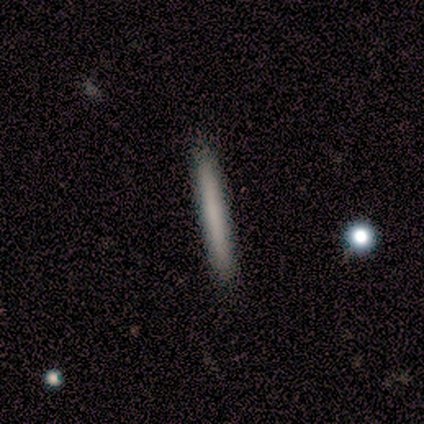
Smooth or featured?
  - smooth: 60% *
  - featured or disk: 40%
  - star or artifact: 0%
How rounded?
  - cigar-shaped: 100% *
  - round: 0%
  - in between: 0%
Merging?
  - none: 80% *
  - minor disturbance: 20%
  - major disturbance: 0%
  - merger: 0%